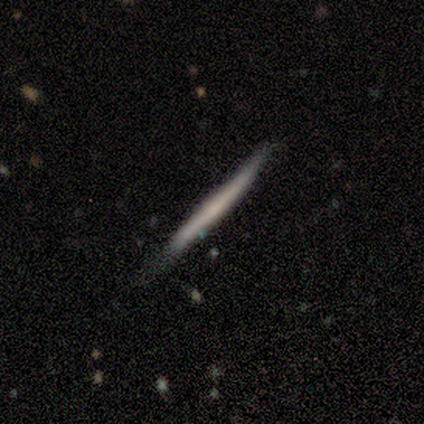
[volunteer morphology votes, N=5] smooth_or_featured: smooth (p=0.60) [alt: featured or disk p=0.40]
how_rounded: cigar-shaped (p=1.00)
merging: none (p=0.60) [alt: minor disturbance p=0.40]